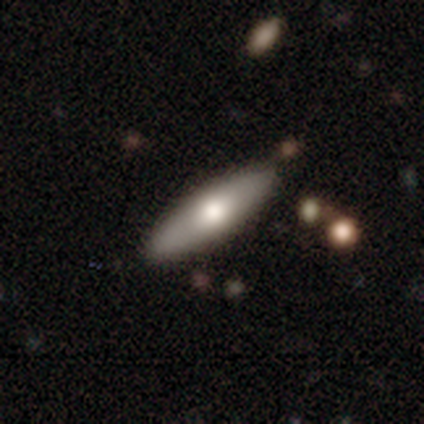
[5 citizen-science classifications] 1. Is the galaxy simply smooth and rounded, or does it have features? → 80% smooth, 20% star or artifact, 0% featured or disk.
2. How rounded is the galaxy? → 100% in between, 0% round, 0% cigar-shaped.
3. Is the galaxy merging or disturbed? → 50% none (tied), 50% minor disturbance (tied), 0% major disturbance, 0% merger.